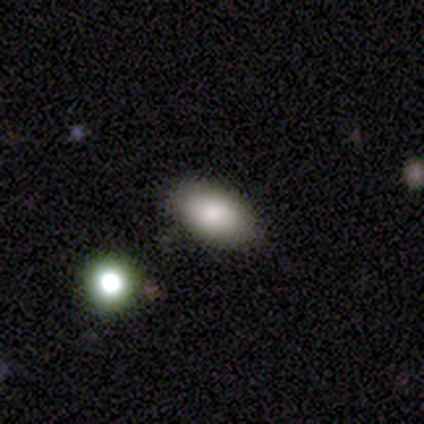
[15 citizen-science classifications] Smooth or featured? 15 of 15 (100%) said smooth. How rounded? 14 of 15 (93%) said in between. Merging? 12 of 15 (80%) said none.